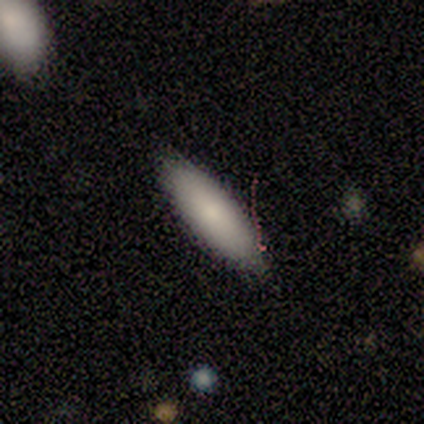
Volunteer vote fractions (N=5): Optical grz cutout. It shows a smooth galaxy with no disk features (80%) that is in between round and cigar-shaped (75%). Merging: none (100%).